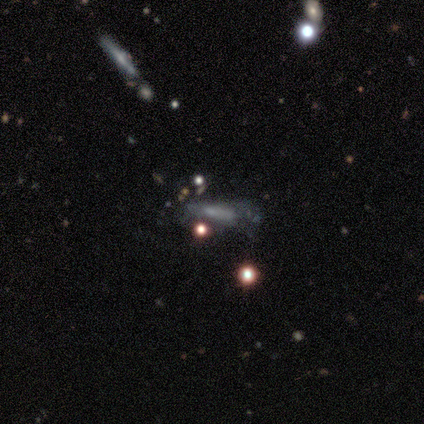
Smooth or featured?
  - smooth: 60% *
  - star or artifact: 40%
  - featured or disk: 0%
How rounded?
  - in between: 67% *
  - cigar-shaped: 33%
  - round: 0%
Merging?
  - merger: 67% *
  - major disturbance: 33%
  - none: 0%
  - minor disturbance: 0%